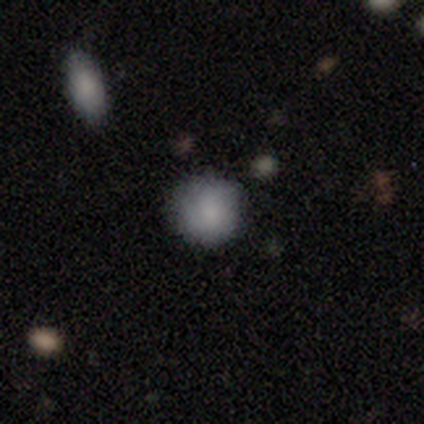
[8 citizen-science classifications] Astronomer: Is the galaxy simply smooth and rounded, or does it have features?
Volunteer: smooth — 100%.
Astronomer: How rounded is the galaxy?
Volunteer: round — 88%.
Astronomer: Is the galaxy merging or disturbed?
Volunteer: none — 62%.